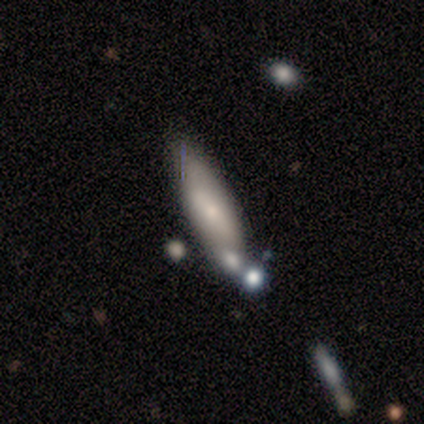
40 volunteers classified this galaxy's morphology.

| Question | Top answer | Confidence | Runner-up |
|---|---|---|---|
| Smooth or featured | smooth | 52% | featured or disk (45%) |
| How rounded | cigar-shaped | 76% | in between (24%) |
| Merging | none | 64% | minor disturbance (21%) |